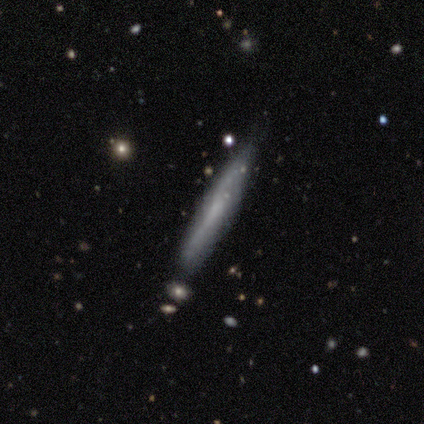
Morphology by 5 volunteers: smooth-or-featured: smooth: 60% | featured or disk: 40% | star or artifact: 0%
  how-rounded: cigar-shaped: 100% | round: 0% | in between: 0%
  merging: none: 100% | minor disturbance: 0% | major disturbance: 0% | merger: 0%